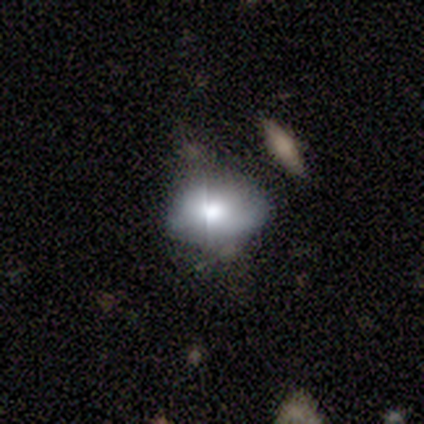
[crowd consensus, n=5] This appears to be a featured or disk galaxy (60%) with no bar (100%), no spiral arms (67%) and a moderate central bulge (67%). Merging: none (50%).